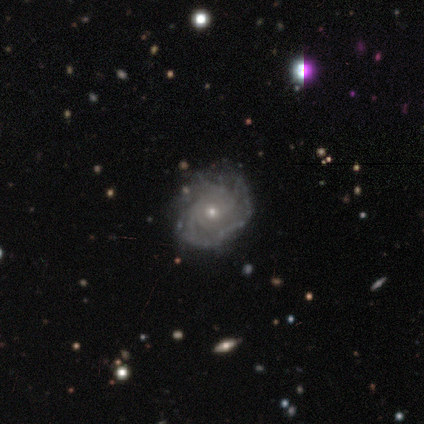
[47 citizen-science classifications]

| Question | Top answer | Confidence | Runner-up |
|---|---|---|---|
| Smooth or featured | featured or disk | 81% | smooth (11%) |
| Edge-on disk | no | 97% | yes (3%) |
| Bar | no | 92% | weak (8%) |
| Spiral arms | yes | 81% | no (19%) |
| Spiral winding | tight | 70% | medium (20%) |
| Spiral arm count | can't tell | 47% | 2 (17%) |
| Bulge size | small | 84% | moderate (16%) |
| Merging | none | 72% | minor disturbance (19%) |